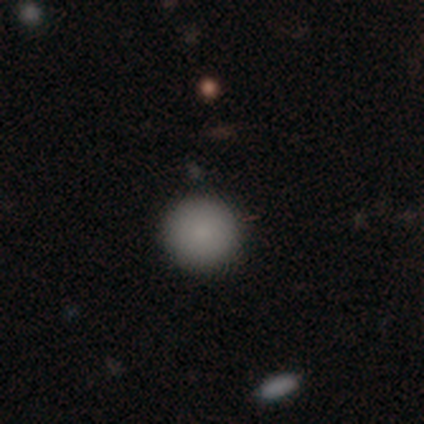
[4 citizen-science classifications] Morphology: type=smooth (75%); roundness=round (100%); merging=none (100%).